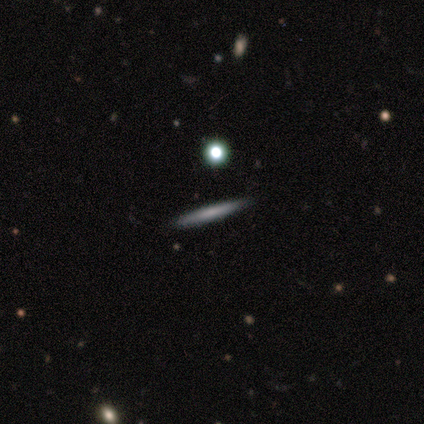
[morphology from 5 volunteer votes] Smooth or featured? smooth (60%)
How rounded? cigar-shaped (100%)
Merging? none (80%)